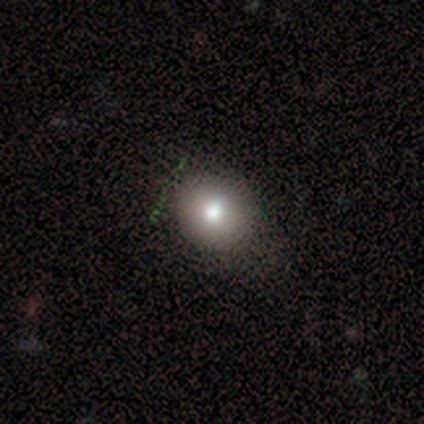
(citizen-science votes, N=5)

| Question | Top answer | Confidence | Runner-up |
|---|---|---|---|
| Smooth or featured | smooth | 80% | featured or disk (20%) |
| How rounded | round | 75% | in between (25%) |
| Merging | none | 80% | minor disturbance (20%) |